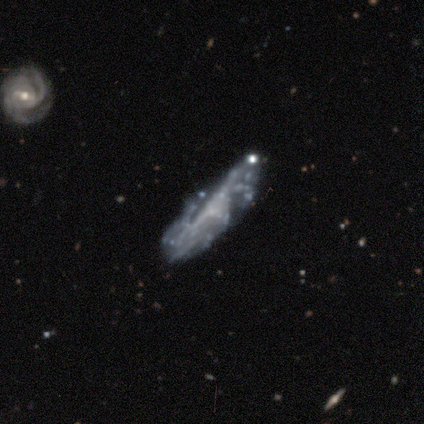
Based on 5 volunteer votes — Smooth or featured: featured or disk — 60% (smooth — 40%)
Edge-on disk: yes — 67% (no — 33%)
Edge-on bulge: none — 50% (tied with rounded — 50%)
Merging: none — 60% (minor disturbance — 40%)